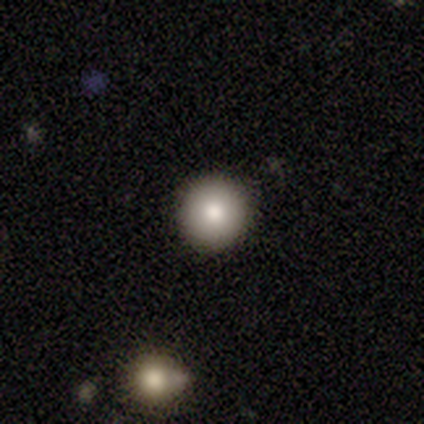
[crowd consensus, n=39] smooth_or_featured: smooth (p=0.82) [alt: star or artifact p=0.10]
how_rounded: round (p=0.91) [alt: in between p=0.09]
merging: none (p=0.97) [alt: minor disturbance p=0.03]